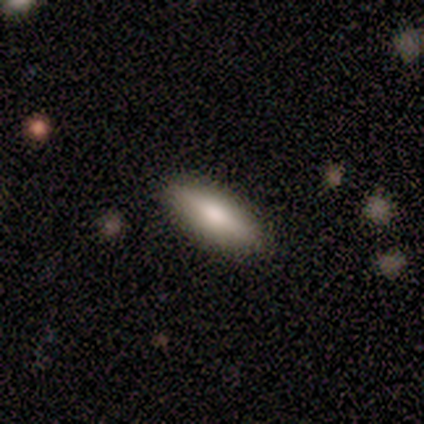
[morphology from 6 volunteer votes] smooth-or-featured: smooth: 67% | featured or disk: 33% | star or artifact: 0%
  how-rounded: in between: 50% (tied) | cigar-shaped: 50% (tied) | round: 0%
  merging: none: 100% | minor disturbance: 0% | major disturbance: 0% | merger: 0%